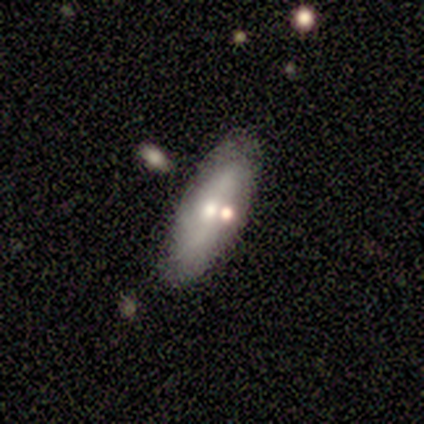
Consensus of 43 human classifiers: This is possibly a featured or disk galaxy (56%). It is likely not viewed edge-on (75%). Bar: likely no (67%). Spiral arm pattern: possibly yes (56%). Spiral arm count: possibly 2 (50%). Spiral winding: likely medium (60%). Central bulge: possibly moderate (56%). Merging: likely none (79%).